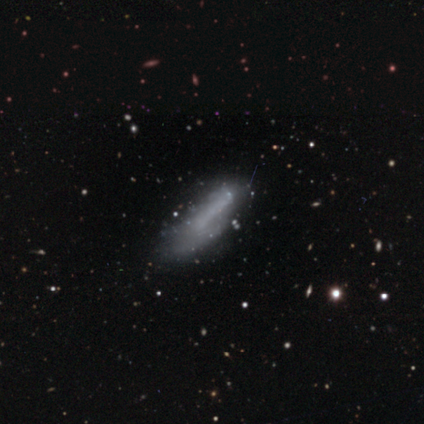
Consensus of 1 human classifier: A star or artifact, not a galaxy (100%).

Vote fractions:
- Smooth or featured? star or artifact: 100% / smooth: 0% / featured or disk: 0%